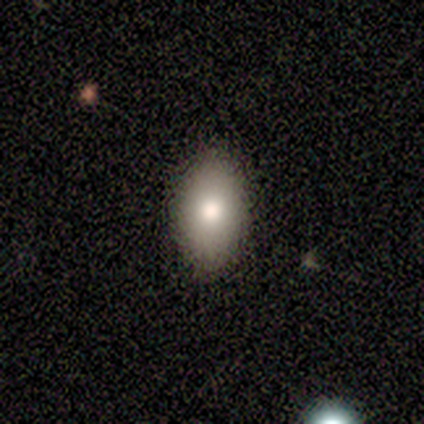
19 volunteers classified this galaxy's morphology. Smooth or featured: smooth — 79% (featured or disk — 11%)
How rounded: in between — 93% (round — 7%)
Merging: none — 94% (minor disturbance — 6%)